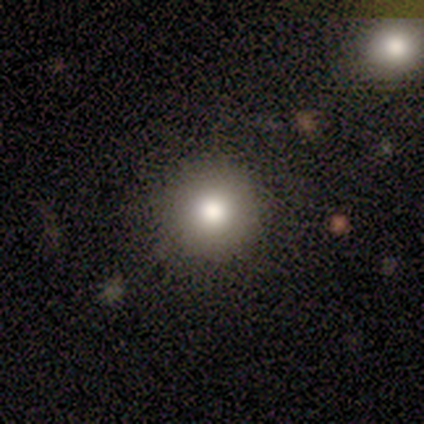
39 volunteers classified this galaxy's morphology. smooth-or-featured: smooth: 72% | star or artifact: 18% | featured or disk: 10%
  how-rounded: round: 93% | in between: 7% | cigar-shaped: 0%
  merging: none: 88% | minor disturbance: 6% | major disturbance: 6% | merger: 0%